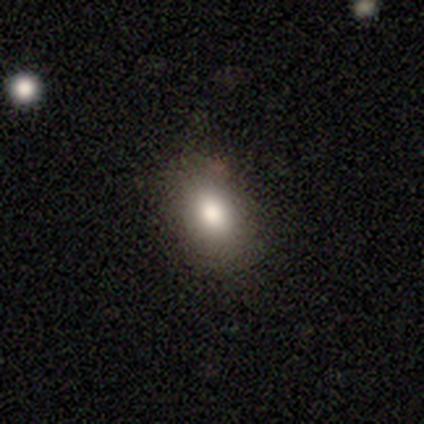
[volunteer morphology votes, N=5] smooth-or-featured: smooth: 100% | featured or disk: 0% | star or artifact: 0%
  how-rounded: in between: 100% | round: 0% | cigar-shaped: 0%
  merging: none: 100% | minor disturbance: 0% | major disturbance: 0% | merger: 0%